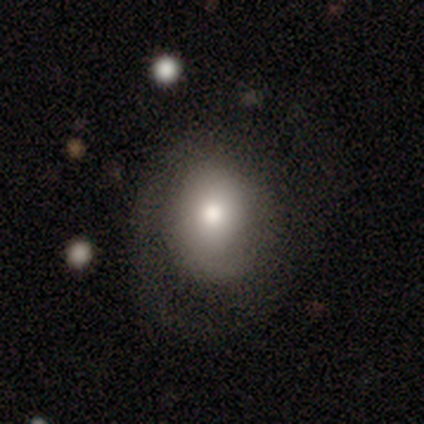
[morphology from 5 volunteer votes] Q: Smooth or featured?
A: featured or disk (80%); runner-up: smooth (20%)
Q: Edge-on disk?
A: no (100%)
Q: Bar?
A: no (100%)
Q: Spiral arms?
A: yes (50%); tied with: no (50%)
Q: Spiral winding?
A: tight (100%)
Q: Spiral arm count?
A: 1 (50%); tied with: 2 (50%)
Q: Bulge size?
A: moderate (50%); runner-up: dominant (25%)
Q: Merging?
A: none (100%)